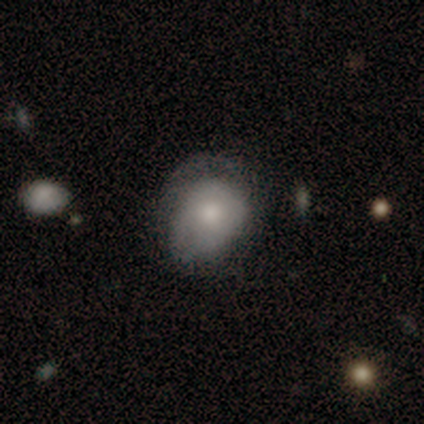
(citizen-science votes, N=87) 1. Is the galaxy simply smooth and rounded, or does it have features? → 64% smooth, 23% featured or disk, 13% star or artifact.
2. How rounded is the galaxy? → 57% round, 43% in between, 0% cigar-shaped.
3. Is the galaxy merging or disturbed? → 53% minor disturbance, 33% none, 14% major disturbance, 0% merger.